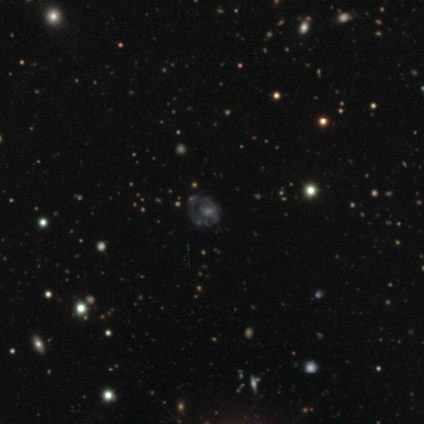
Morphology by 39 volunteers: Smooth or featured? featured or disk (59%)
Edge-on disk? no (100%)
Bar? no (70%)
Spiral arms? no (61%)
Bulge size? moderate (35%, tied with small)
Merging? none (45%)